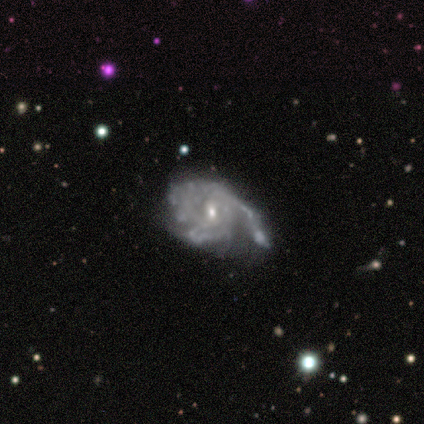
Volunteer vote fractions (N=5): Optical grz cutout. It shows a featured or disk galaxy (80%) with a weak bar (75%), 3 (67%) tight (100%) spiral arms (75%) and a moderate central bulge (50%, tied with small). Merging: minor disturbance (50%).